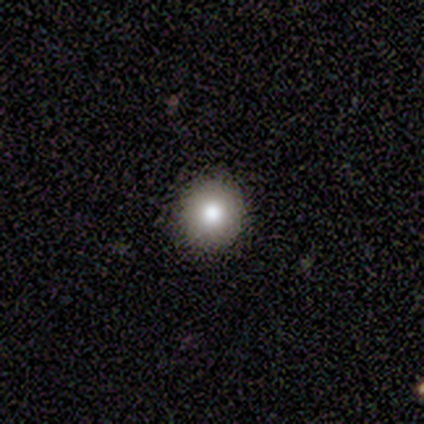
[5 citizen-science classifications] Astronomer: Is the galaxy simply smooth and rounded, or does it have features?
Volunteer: smooth — 80%.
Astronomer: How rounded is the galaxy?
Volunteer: in between — 75%.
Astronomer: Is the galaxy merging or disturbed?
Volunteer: none — 80%.